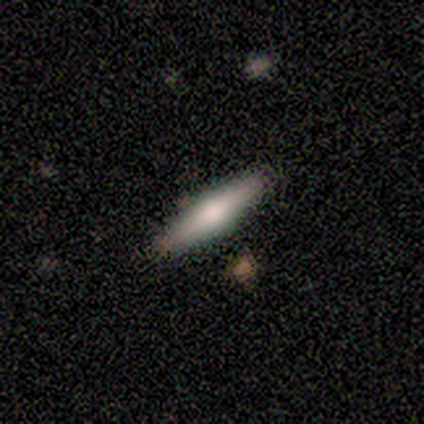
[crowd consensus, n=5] This appears to be a featured or disk galaxy (60%) viewed edge-on (100%) with a rounded central bulge (67%). Merging: none (100%).